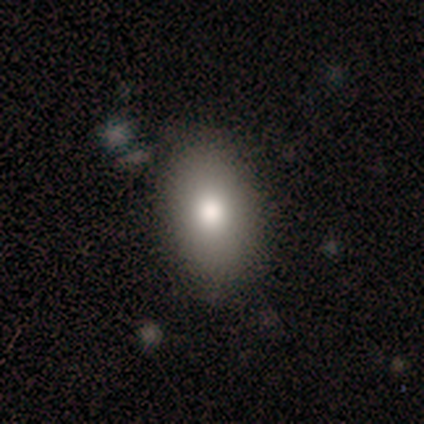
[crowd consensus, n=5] This appears to be a smooth galaxy with no disk features (60%) that is in between round and cigar-shaped (67%). Merging: none (100%).